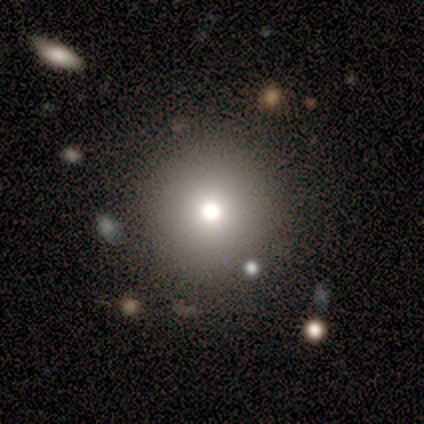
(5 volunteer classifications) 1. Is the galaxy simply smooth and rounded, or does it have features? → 100% smooth, 0% featured or disk, 0% star or artifact.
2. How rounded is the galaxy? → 100% round, 0% in between, 0% cigar-shaped.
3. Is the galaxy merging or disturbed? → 100% none, 0% minor disturbance, 0% major disturbance, 0% merger.